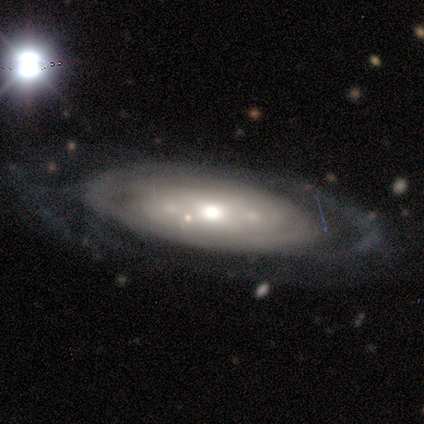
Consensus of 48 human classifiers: Smooth or featured? featured or disk (81%)
Edge-on disk? no (90%)
Bar? no (71%)
Spiral arms? no (51%)
Bulge size? moderate (63%)
Merging? none (62%)